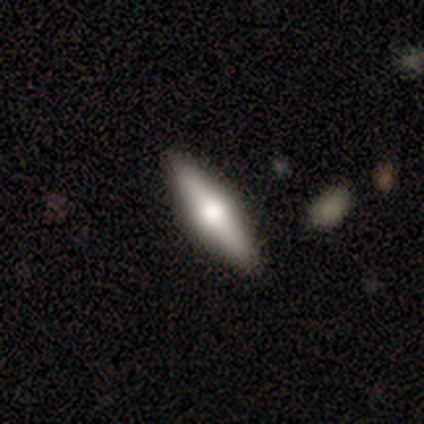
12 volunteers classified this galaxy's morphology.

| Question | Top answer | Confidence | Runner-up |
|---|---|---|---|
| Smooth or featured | featured or disk | 58% | smooth (42%) |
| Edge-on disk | yes | 86% | no (14%) |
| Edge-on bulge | rounded | 100% | — |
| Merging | none | 83% | minor disturbance (8%) |